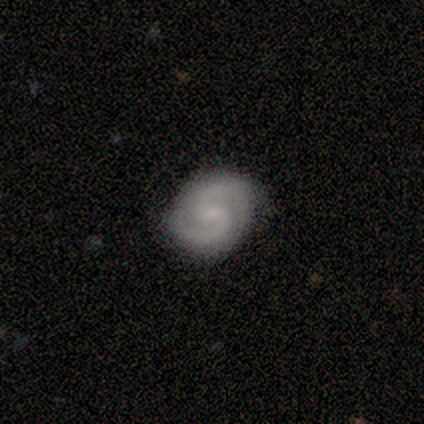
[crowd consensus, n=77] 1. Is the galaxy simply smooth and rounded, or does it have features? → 92% featured or disk, 5% star or artifact, 3% smooth.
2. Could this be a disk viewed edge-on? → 94% no, 6% yes.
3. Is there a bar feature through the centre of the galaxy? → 55% no, 42% weak, 3% strong.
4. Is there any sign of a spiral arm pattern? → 96% yes, 4% no.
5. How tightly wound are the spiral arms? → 62% medium, 22% tight, 16% loose.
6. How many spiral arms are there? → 98% 2, 2% 3, 0% 1, 0% 4, 0% more than 4, 0% can't tell.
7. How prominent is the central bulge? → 75% small, 13% none, 12% moderate, 0% dominant, 0% large.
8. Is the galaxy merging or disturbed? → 53% none, 10% minor disturbance, 0% major disturbance, 0% merger.